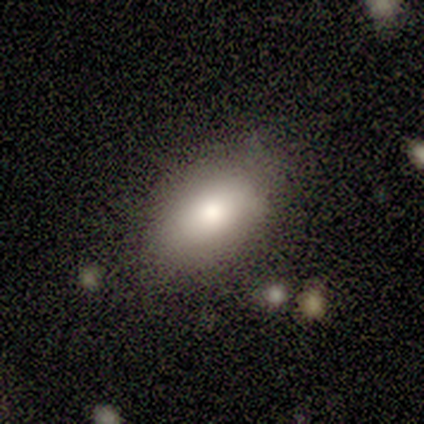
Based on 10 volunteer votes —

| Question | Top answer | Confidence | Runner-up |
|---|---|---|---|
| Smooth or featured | smooth | 100% | — |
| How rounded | in between | 100% | — |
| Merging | none | 80% | minor disturbance (10%) |